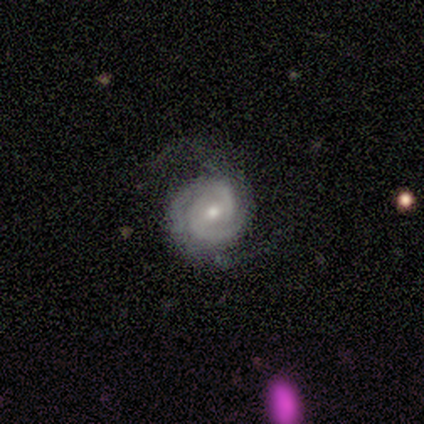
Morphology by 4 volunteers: This is likely a featured or disk galaxy (75%). It is clearly not viewed edge-on (100%). Bar: likely weak (67%). Spiral arm pattern: clearly yes (100%). Spiral arm count: likely 3 (67%). Spiral winding: marginally tight (33%, tied with medium and loose). Central bulge: likely moderate (67%). Merging: clearly none (100%).